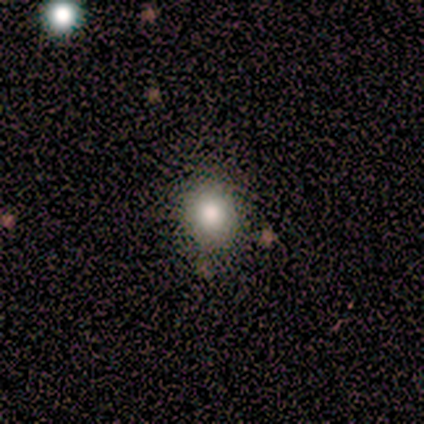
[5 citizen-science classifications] Volunteers were most divided on "how rounded": round: 60%, in between: 40%, cigar-shaped: 0%. More confident: smooth or featured — smooth (100%); merging — none (100%).